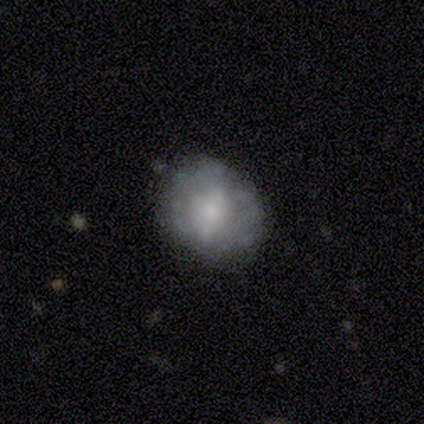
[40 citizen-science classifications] smooth-or-featured: smooth: 42% | featured or disk: 38% | star or artifact: 20%
  how-rounded: round: 53% | in between: 47% | cigar-shaped: 0%
  merging: none: 78% | minor disturbance: 19% | merger: 3% | major disturbance: 0%